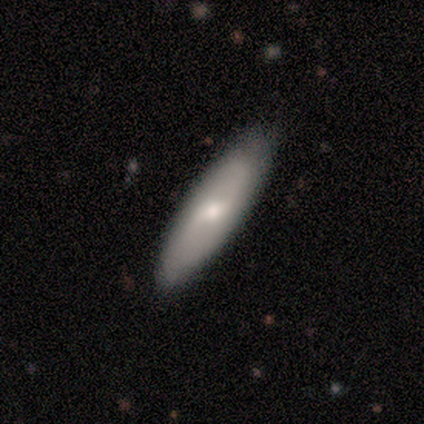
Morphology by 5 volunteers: Smooth or featured: smooth — 60% (featured or disk — 40%)
How rounded: cigar-shaped — 67% (in between — 33%)
Merging: none — 80% (minor disturbance — 20%)